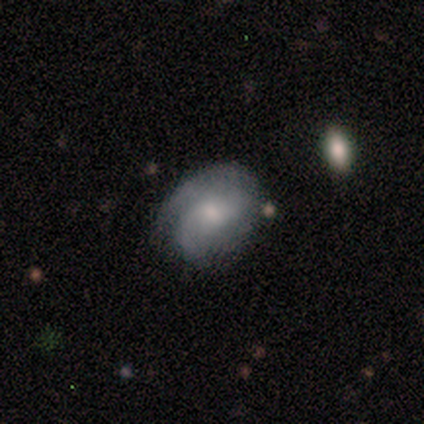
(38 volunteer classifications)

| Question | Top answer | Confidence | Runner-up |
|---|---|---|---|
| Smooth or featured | featured or disk | 66% | smooth (24%) |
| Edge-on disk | no | 100% | — |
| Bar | no | 68% | weak (32%) |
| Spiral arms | yes | 96% | no (4%) |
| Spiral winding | medium | 42% | loose (38%) |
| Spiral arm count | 2 | 62% | 1 (17%) |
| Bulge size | small | 56% | moderate (32%) |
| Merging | none | 68% | minor disturbance (18%) |